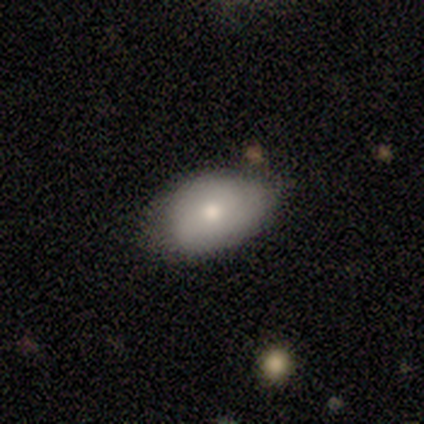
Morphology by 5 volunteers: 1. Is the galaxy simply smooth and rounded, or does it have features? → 60% smooth, 20% featured or disk, 20% star or artifact.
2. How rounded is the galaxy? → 100% in between, 0% round, 0% cigar-shaped.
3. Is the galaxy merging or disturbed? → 75% none, 25% minor disturbance, 0% major disturbance, 0% merger.